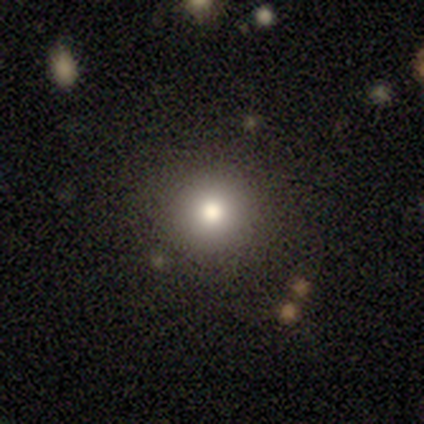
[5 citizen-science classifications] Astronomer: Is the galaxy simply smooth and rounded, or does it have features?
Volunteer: smooth — 40%, tied with star or artifact at 40%.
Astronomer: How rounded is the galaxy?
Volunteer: round — 100%.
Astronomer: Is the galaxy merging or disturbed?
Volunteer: none — 33%, tied with minor disturbance and merger at 33%.